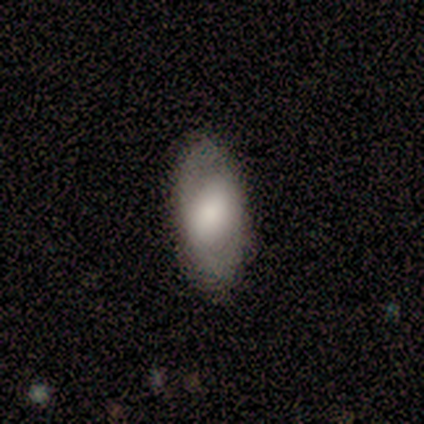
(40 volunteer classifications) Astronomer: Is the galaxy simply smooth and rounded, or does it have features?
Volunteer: smooth — 60%.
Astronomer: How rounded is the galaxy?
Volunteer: in between — 96%.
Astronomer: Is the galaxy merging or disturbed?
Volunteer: none — 81%.